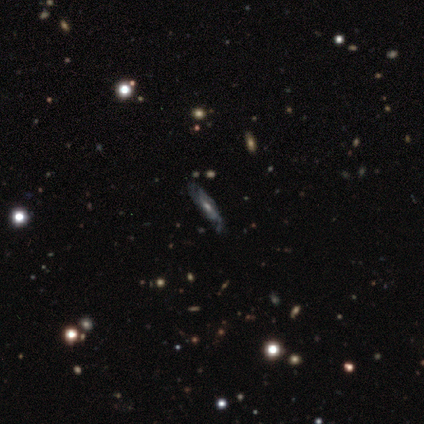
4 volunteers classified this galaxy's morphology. Smooth or featured?
  - featured or disk: 100% *
  - smooth: 0%
  - star or artifact: 0%
Edge-on disk?
  - no: 75% *
  - yes: 25%
Bar?
  - weak: 67% *
  - no: 33%
  - strong: 0%
Spiral arms?
  - yes: 67% *
  - no: 33%
Spiral winding?
  - tight: 50% * (tied)
  - loose: 50% * (tied)
  - medium: 0%
Spiral arm count?
  - can't tell: 100% *
  - 1: 0%
  - 2: 0%
  - 3: 0%
  - 4: 0%
  - more than 4: 0%
Bulge size?
  - small: 67% *
  - large: 33%
  - dominant: 0%
  - moderate: 0%
  - none: 0%
Merging?
  - none: 75% *
  - minor disturbance: 25%
  - major disturbance: 0%
  - merger: 0%